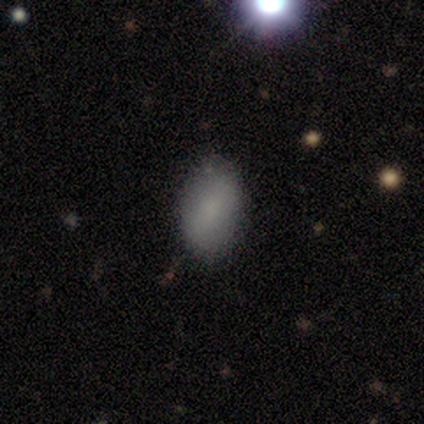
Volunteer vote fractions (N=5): A smooth galaxy with no disk features (80%) that is in between round and cigar-shaped (100%). Merging: none (100%).